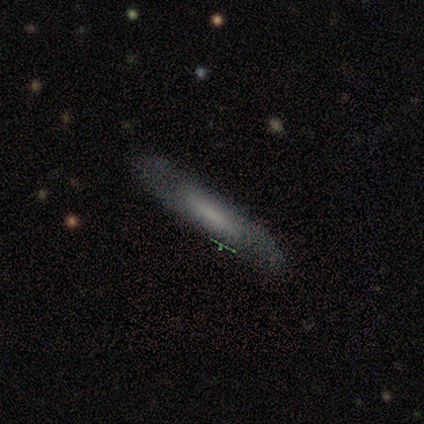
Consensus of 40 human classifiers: A smooth galaxy with no disk features (55%) that is cigar-shaped (95%). Merging: none (97%).